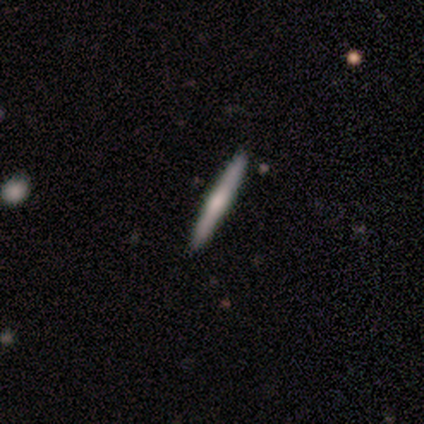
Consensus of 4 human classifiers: Morphology: type=smooth (50%, tied with featured or disk); roundness=cigar-shaped (100%); merging=none (100%).